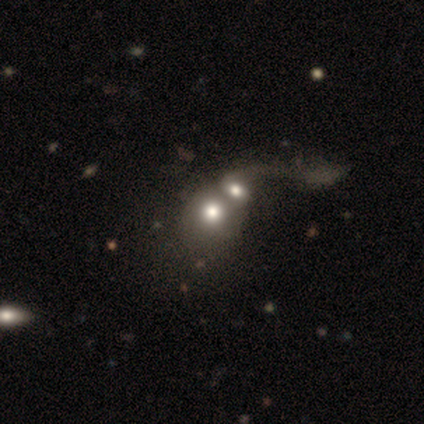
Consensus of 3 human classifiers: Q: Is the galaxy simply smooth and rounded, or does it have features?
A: smooth — 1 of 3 (33%, tied with featured or disk and star or artifact).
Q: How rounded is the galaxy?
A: in between — 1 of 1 (100%).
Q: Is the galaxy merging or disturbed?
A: merger — 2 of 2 (100%).